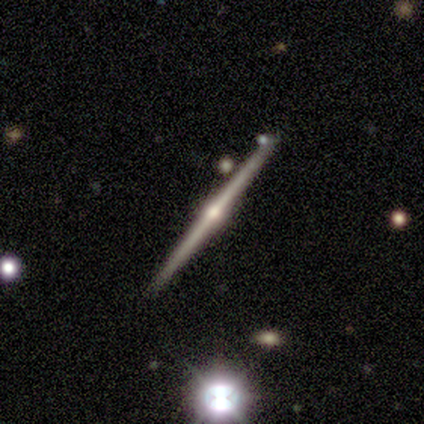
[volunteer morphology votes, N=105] featured or disk 90%, smooth 6%, star or artifact 4%. Down the decision tree: edge-on disk — yes (99%); edge-on bulge — rounded (94%); merging — none (83%).